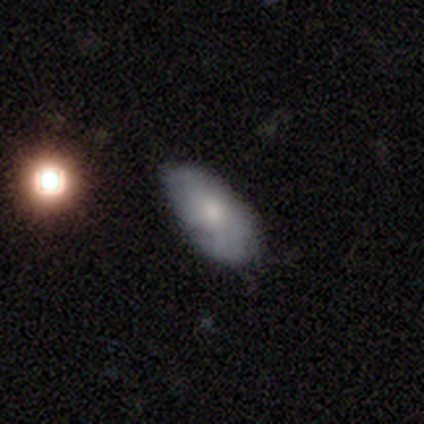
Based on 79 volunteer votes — Smooth or featured: smooth — 53% (featured or disk — 42%)
How rounded: in between — 93% (cigar-shaped — 5%)
Merging: none — 28% (minor disturbance — 19%)